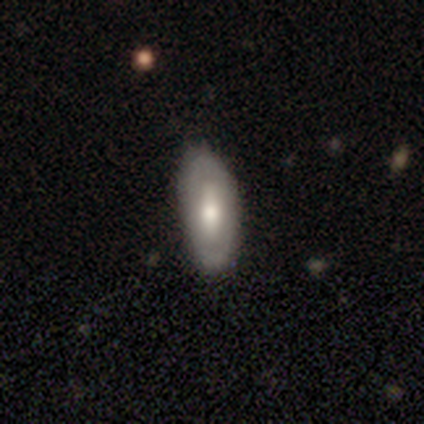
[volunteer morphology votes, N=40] Smooth or featured? smooth (52%)
How rounded? in between (81%)
Merging? none (68%)